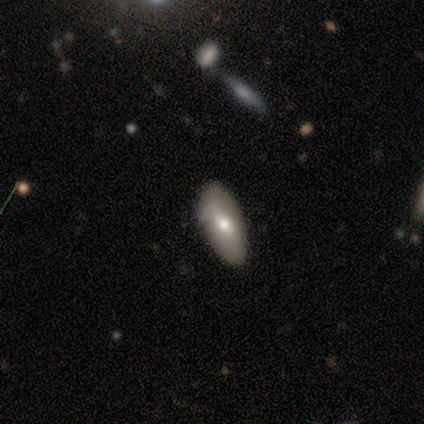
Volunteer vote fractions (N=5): smooth 60%, featured or disk 40%, star or artifact 0%. Down the decision tree: how rounded — in between (100%); merging — none (100%).